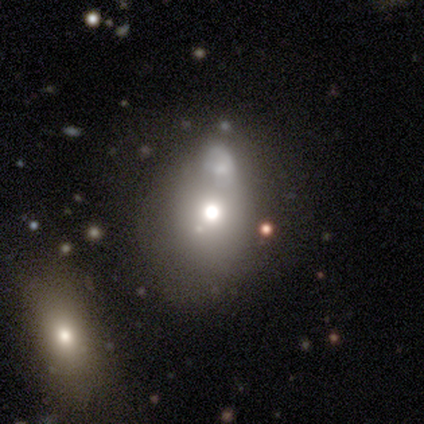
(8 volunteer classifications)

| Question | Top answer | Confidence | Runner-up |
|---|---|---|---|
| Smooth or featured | smooth | 75% | featured or disk (12%) |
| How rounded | in between | 67% | round (33%) |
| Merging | major disturbance | 43% | none (29%) |